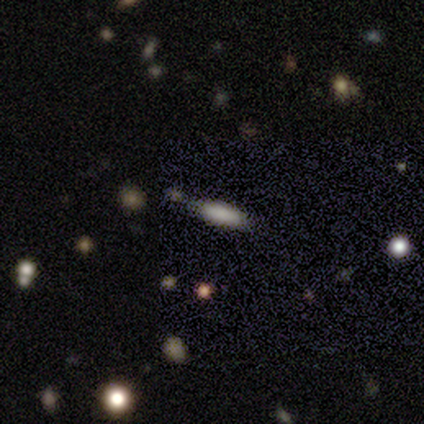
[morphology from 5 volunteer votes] This is likely a smooth galaxy (60%). How rounded: likely in between (67%). Merging: possibly none (50%).